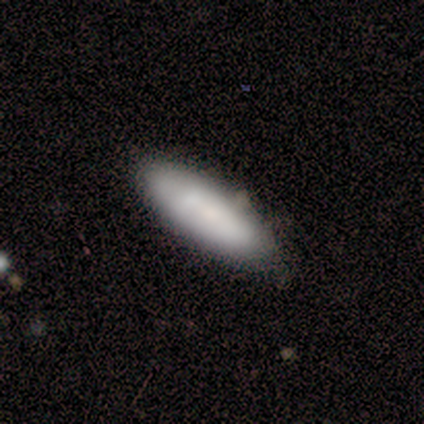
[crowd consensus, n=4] smooth 50%, featured or disk 25%, star or artifact 25%. Down the decision tree: how rounded — in between (50%, tied with cigar-shaped); merging — none (67%).